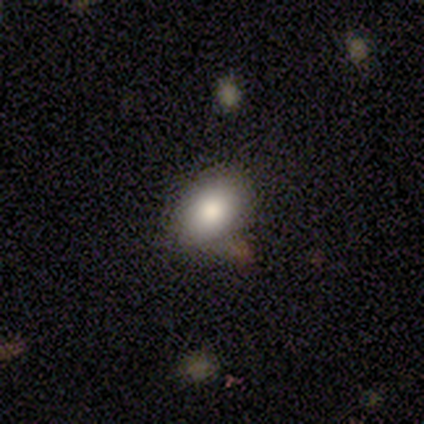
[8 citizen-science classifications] Smooth or featured: smooth — 88% (featured or disk — 12%)
How rounded: in between — 71% (round — 29%)
Merging: none — 62% (minor disturbance — 25%)